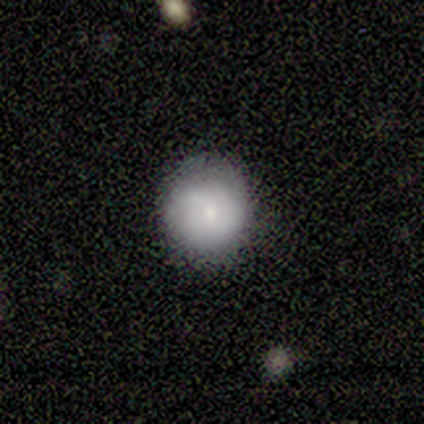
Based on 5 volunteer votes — Smooth or featured? 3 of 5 (60%) said featured or disk. Edge-on disk? 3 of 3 (100%) said no. Bar? 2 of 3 (67%) said no. Spiral arms? 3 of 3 (100%) said yes. Spiral winding? 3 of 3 (100%) said medium. Spiral arm count? 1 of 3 (33%, tied with 3 and can't tell) said 2. Bulge size? 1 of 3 (33%, tied with moderate and small) said large. Merging? 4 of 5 (80%) said none.